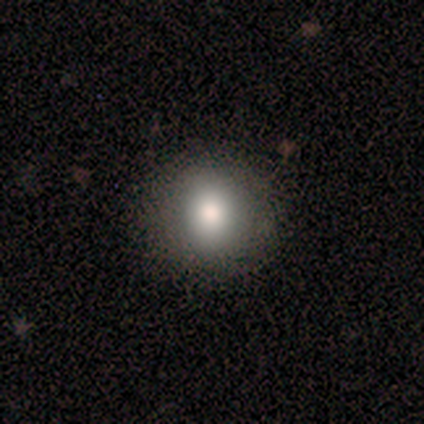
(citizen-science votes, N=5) Smooth or featured: smooth — 80% (star or artifact — 20%)
How rounded: round — 75% (in between — 25%)
Merging: none — 75% (major disturbance — 25%)